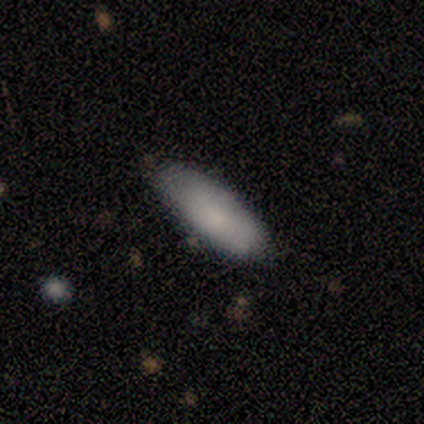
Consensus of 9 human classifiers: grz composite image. It shows a smooth galaxy with no disk features (89%) that is in between round and cigar-shaped (75%). Merging: none (78%).